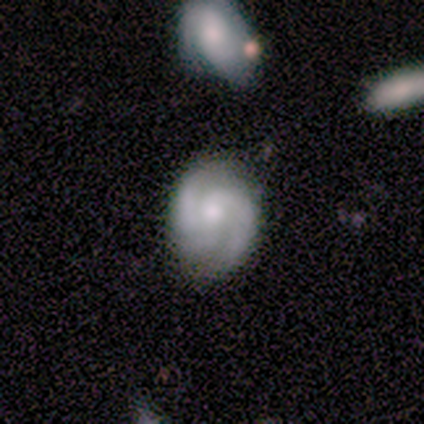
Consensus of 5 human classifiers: Overall: featured or disk (100%). Edge-on disk: no (100%). Bar: no (100%). Spiral arms: yes (100%). Spiral arm count: 2 (80%). Spiral winding: tight (40%, tied with medium). Bulge size: small (60%; moderate 40%). Merging: none (80%).